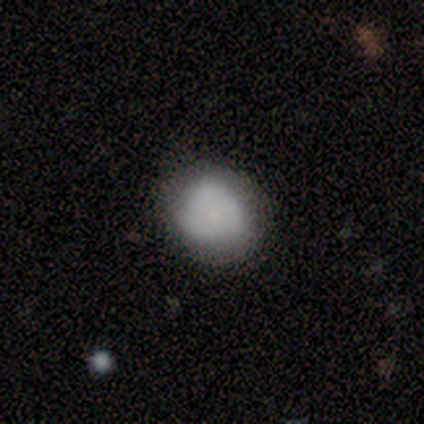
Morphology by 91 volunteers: Overall: smooth (69%). How rounded: round (86%). Merging: none (66%; minor disturbance 28%).